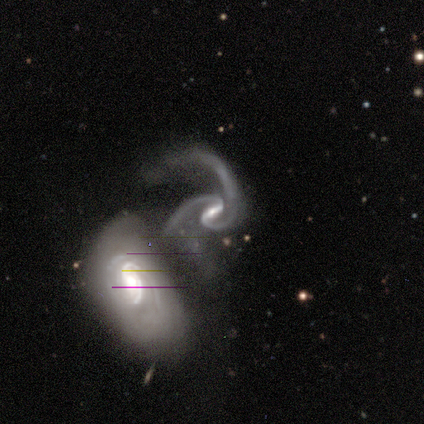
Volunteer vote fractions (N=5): This appears to be a featured or disk galaxy (100%) with a weak bar (60%), 2 (80%) medium (80%) spiral arms (100%) and a small central bulge (40%). Merging: none (40%, tied with minor disturbance).